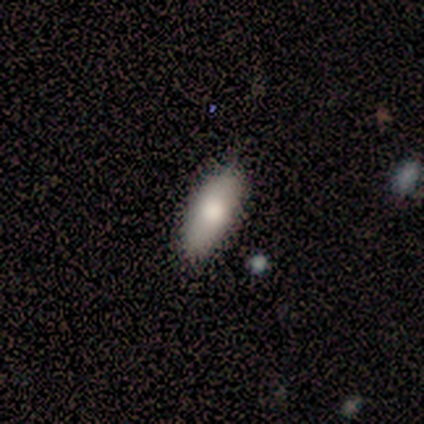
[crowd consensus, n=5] This appears to be a smooth galaxy with no disk features (80%) that is in between round and cigar-shaped (75%). Merging: none (100%).